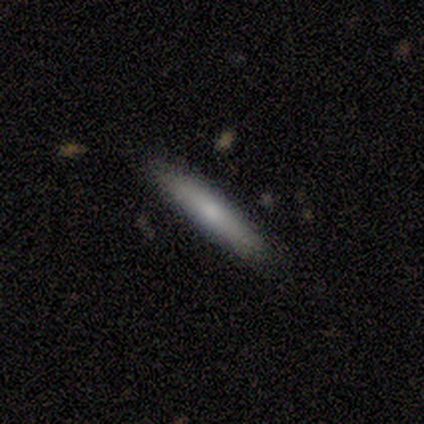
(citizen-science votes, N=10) Smooth or featured?
  - smooth: 60% *
  - featured or disk: 40%
  - star or artifact: 0%
How rounded?
  - cigar-shaped: 100% *
  - round: 0%
  - in between: 0%
Merging?
  - none: 90% *
  - minor disturbance: 10%
  - major disturbance: 0%
  - merger: 0%